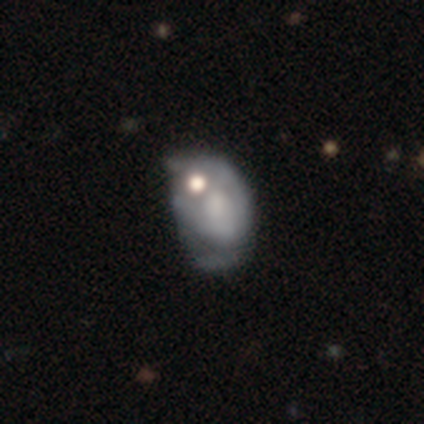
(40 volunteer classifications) smooth_or_featured: featured or disk (p=0.55) [alt: smooth p=0.35]
disk_edge_on: no (p=1.00)
bar: no (p=0.95) [alt: weak p=0.05]
has_spiral_arms: no (p=0.64) [alt: yes p=0.36]
bulge_size: none (p=0.64) [alt: large p=0.18]
merging: merger (p=0.33) [alt: none p=0.25]